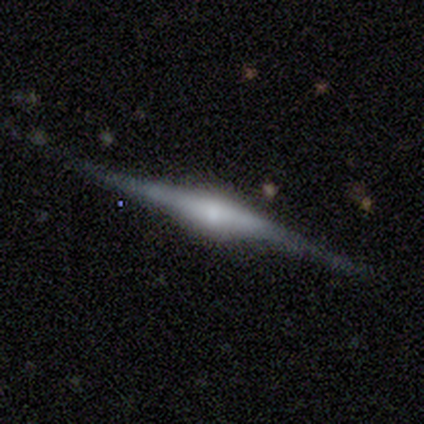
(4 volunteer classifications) A featured or disk galaxy (100%) viewed edge-on (100%) with a rounded central bulge (100%). Merging: none (100%).